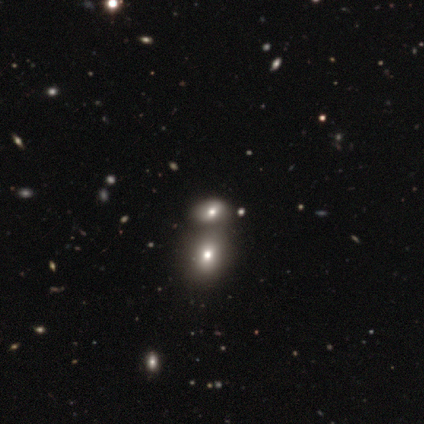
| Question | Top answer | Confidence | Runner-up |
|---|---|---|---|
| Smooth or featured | smooth | 50% | featured or disk (25%) |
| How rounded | round | 50% | tied: in between (50%) |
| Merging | merger | 67% | minor disturbance (33%) |